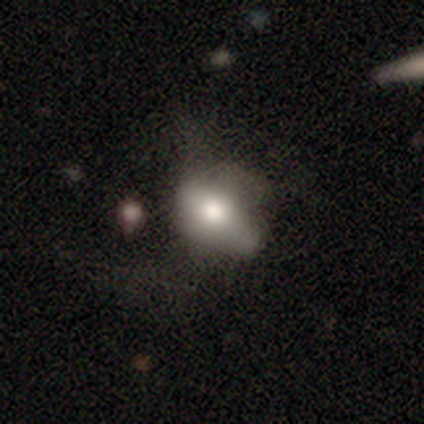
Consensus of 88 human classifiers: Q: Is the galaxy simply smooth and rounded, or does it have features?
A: smooth — 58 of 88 (66%).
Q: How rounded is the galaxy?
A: in between — 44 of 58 (76%).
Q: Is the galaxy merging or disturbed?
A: none — 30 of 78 (38%).